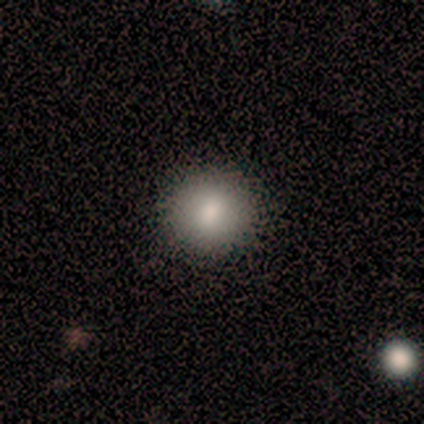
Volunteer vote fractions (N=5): Q: Smooth or featured?
A: smooth (80%); runner-up: featured or disk (20%)
Q: How rounded?
A: round (100%)
Q: Merging?
A: none (60%); runner-up: minor disturbance (40%)